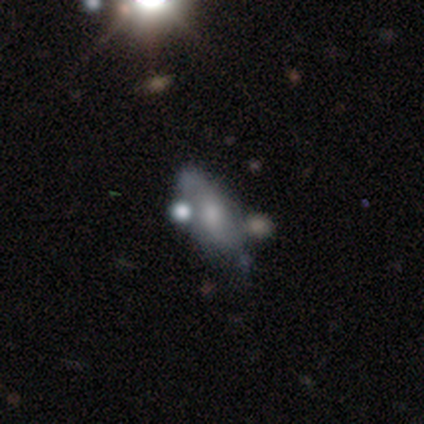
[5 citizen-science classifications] This appears to be a smooth galaxy with no disk features (80%) that is in between round and cigar-shaped (75%). Merging: merger (60%).